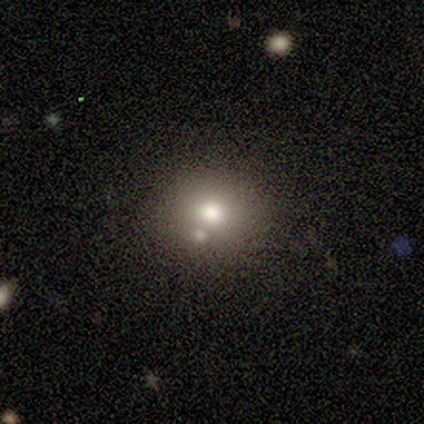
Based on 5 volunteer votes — smooth_or_featured: smooth (p=0.80) [alt: star or artifact p=0.20]
how_rounded: round (p=0.75) [alt: in between p=0.25]
merging: merger (p=0.75) [alt: none p=0.25]